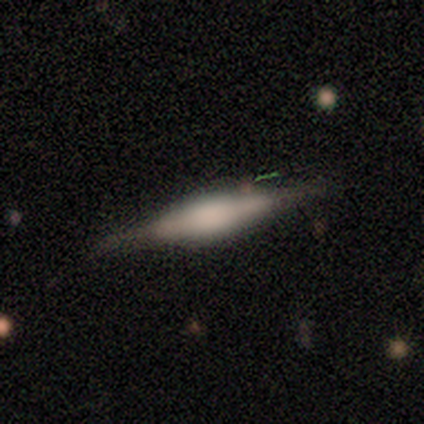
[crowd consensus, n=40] smooth_or_featured: featured or disk (p=0.68) [alt: smooth p=0.23]
disk_edge_on: yes (p=0.96) [alt: no p=0.04]
edge_on_bulge: boxy (p=0.65) [alt: rounded p=0.35]
merging: none (p=0.81) [alt: minor disturbance p=0.14]